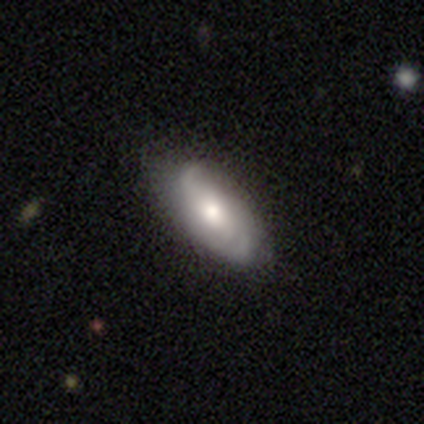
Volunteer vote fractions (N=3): A smooth galaxy with no disk features (67%) that is in between round and cigar-shaped (100%). Merging: none (33%, tied with minor disturbance and major disturbance).